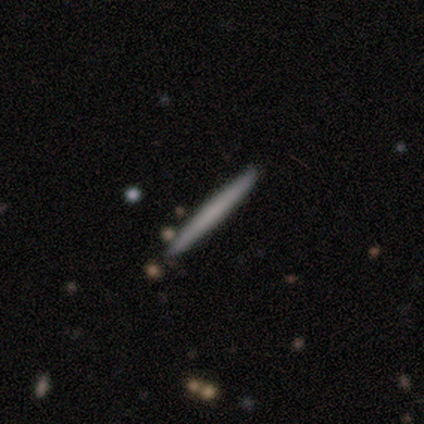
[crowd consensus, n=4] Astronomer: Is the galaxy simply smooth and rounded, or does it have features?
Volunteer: smooth — 75%.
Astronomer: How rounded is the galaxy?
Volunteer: cigar-shaped — 100%.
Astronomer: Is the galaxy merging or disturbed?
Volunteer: none — 100%.